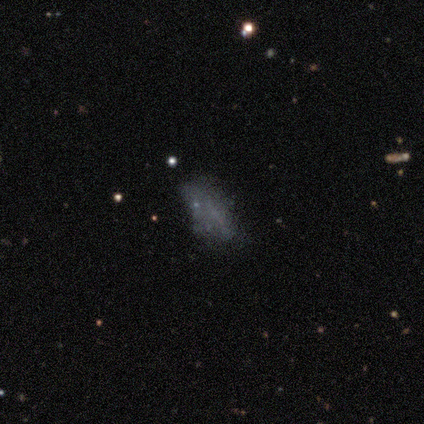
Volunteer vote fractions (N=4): Q: Smooth or featured?
A: smooth (50%); runner-up: featured or disk (25%)
Q: How rounded?
A: in between (100%)
Q: Merging?
A: none (100%)